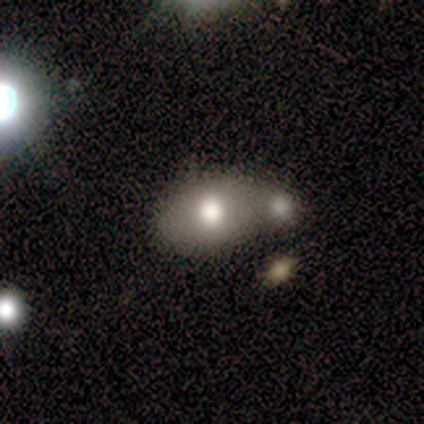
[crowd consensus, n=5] A smooth galaxy with no disk features (60%) that is in between round and cigar-shaped (67%). Merging: minor disturbance (50%).